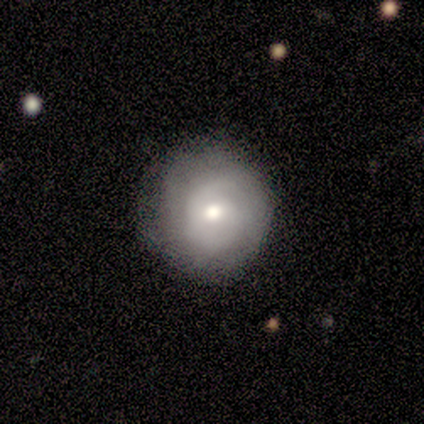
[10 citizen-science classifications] Smooth or featured? 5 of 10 (50%, tied with featured or disk) said smooth. How rounded? 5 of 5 (100%) said round. Merging? 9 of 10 (90%) said none.